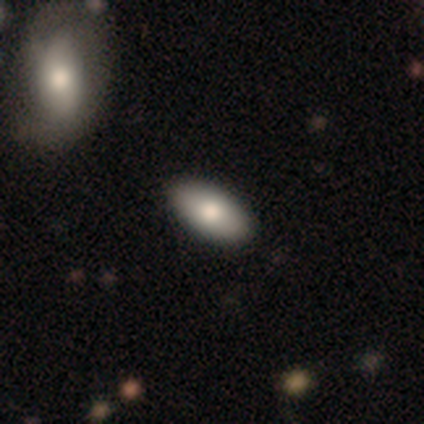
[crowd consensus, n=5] smooth_or_featured: smooth (p=0.40) [tied with: star or artifact p=0.40]
how_rounded: in between (p=1.00)
merging: none (p=1.00)